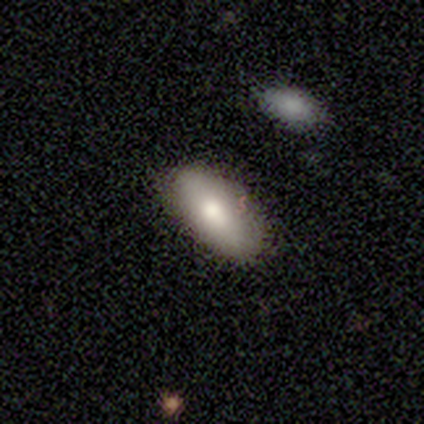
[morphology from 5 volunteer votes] type=smooth (100%); roundness=in between (100%); merging=none (100%).